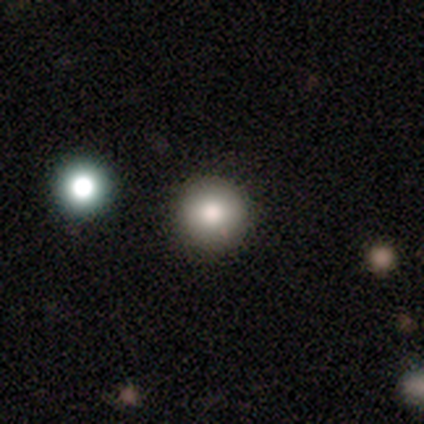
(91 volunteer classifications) Smooth or featured? 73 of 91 (80%) said smooth. How rounded? 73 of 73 (100%) said round. Merging? 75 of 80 (94%) said none.